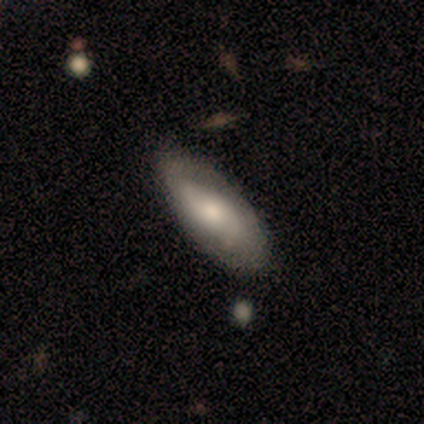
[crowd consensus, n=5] featured or disk 60%, smooth 40%, star or artifact 0%. Down the decision tree: edge-on disk — no (100%); bar — no (67%); spiral arms — no (100%); bulge size — moderate (67%); merging — none (100%).